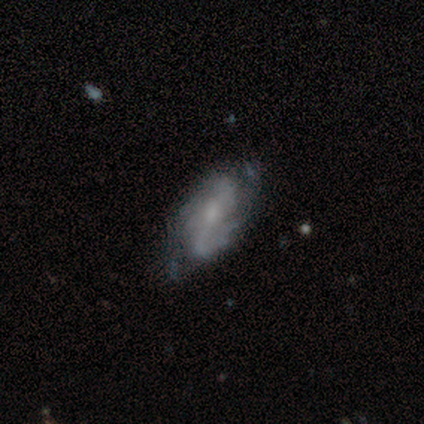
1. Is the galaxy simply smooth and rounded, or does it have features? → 65% featured or disk, 25% smooth, 10% star or artifact.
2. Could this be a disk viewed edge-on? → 96% no, 4% yes.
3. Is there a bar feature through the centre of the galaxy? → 48% weak, 28% strong, 24% no.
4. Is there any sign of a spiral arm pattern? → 92% yes, 8% no.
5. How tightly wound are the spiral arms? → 39% medium (tied), 39% loose (tied), 22% tight.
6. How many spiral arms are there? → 57% 2, 30% can't tell, 9% 3, 4% 4, 0% 1, 0% more than 4.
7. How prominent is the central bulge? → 36% small, 32% moderate, 32% none, 0% dominant, 0% large.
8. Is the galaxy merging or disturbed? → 64% none, 25% minor disturbance, 8% major disturbance, 3% merger.